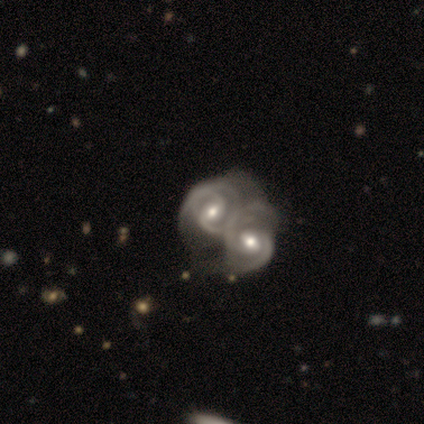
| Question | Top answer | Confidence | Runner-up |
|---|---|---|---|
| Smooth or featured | featured or disk | 80% | smooth (20%) |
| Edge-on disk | no | 100% | — |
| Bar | weak | 50% | tied: no (50%) |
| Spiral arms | yes | 100% | — |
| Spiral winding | tight | 50% | tied: medium (50%) |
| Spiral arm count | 2 | 75% | 3 (25%) |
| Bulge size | moderate | 50% | small (25%) |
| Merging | merger | 80% | none (20%) |